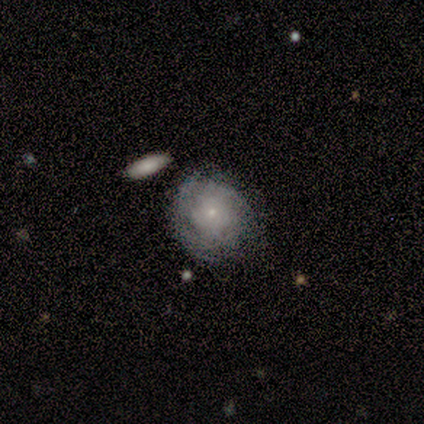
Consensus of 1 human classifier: Morphology: type=smooth (100%); roundness=round (100%); merging=none (100%).